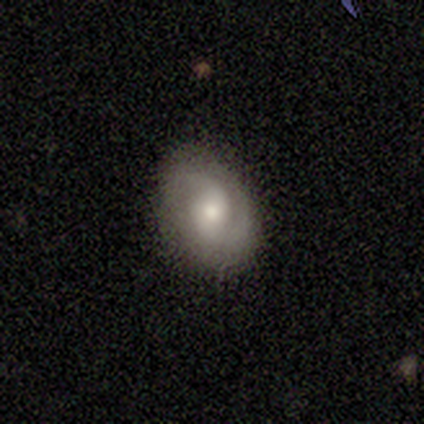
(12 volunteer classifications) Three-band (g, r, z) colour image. It shows a featured or disk galaxy (75%) with no bar (89%), 2 (89%) tight (56%) spiral arms (100%) and a small central bulge (67%). Merging: none (100%).